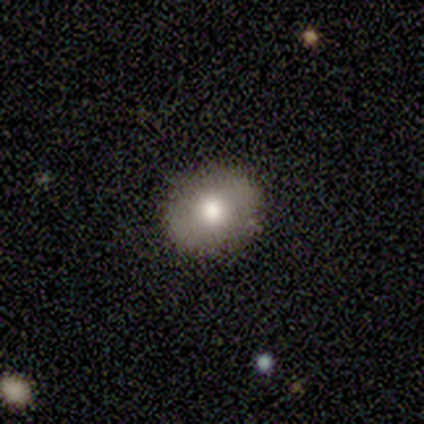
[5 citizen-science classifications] Morphology: type=smooth (80%); roundness=round (50%, tied with in between); merging=none (80%).